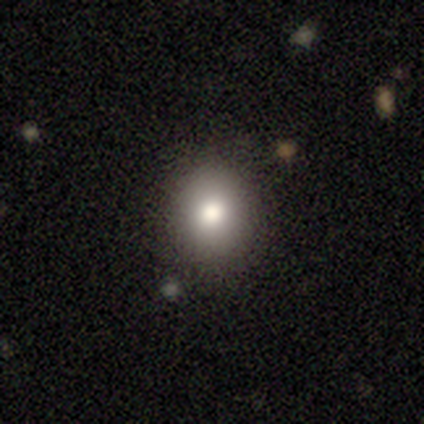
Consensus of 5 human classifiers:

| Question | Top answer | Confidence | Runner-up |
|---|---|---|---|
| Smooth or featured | smooth | 80% | featured or disk (20%) |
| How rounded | round | 100% | — |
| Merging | none | 60% | minor disturbance (20%) |